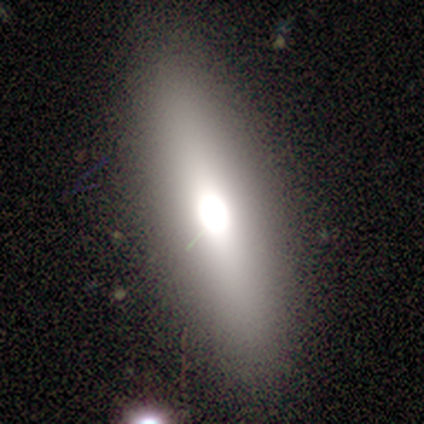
Morphology: type=smooth (80%); roundness=in between (75%); merging=none (100%).